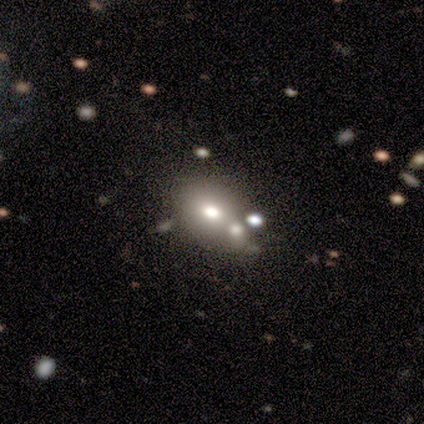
Volunteers were most divided on "merging": none: 47%, merger: 31%, minor disturbance: 16%, major disturbance: 6%. More confident: smooth or featured — smooth (64%); how rounded — in between (64%).